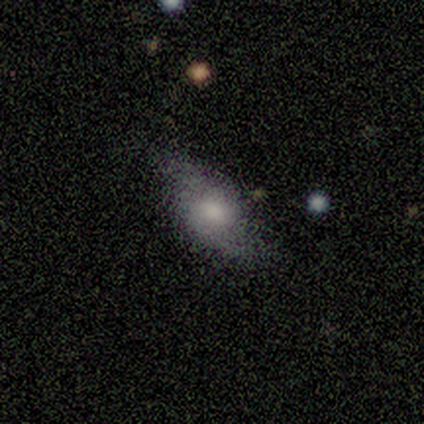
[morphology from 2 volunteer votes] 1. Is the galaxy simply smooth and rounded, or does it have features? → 100% featured or disk, 0% smooth, 0% star or artifact.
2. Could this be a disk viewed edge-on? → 100% no, 0% yes.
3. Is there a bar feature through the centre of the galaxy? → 50% weak (tied), 50% no (tied), 0% strong.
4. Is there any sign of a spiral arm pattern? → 100% yes, 0% no.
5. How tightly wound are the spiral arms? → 50% medium (tied), 50% loose (tied), 0% tight.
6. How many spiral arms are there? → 50% 2 (tied), 50% can't tell (tied), 0% 1, 0% 3, 0% 4, 0% more than 4.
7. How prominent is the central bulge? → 100% moderate, 0% dominant, 0% large, 0% small, 0% none.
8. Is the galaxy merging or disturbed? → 50% none (tied), 50% minor disturbance (tied), 0% major disturbance, 0% merger.